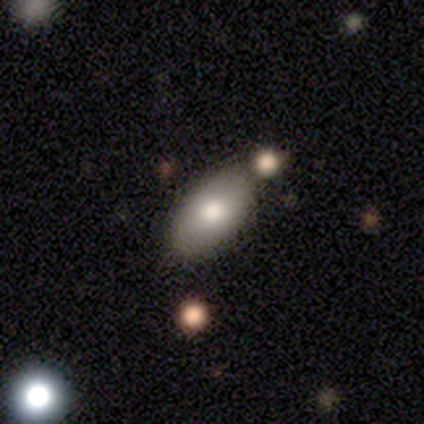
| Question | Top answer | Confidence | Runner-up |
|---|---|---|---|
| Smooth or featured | smooth | 100% | — |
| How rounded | in between | 100% | — |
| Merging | none | 75% | minor disturbance (25%) |